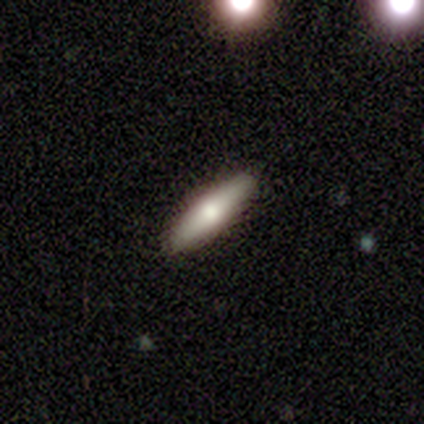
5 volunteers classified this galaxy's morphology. A smooth galaxy with no disk features (60%) that is cigar-shaped (100%). Merging: none (100%).